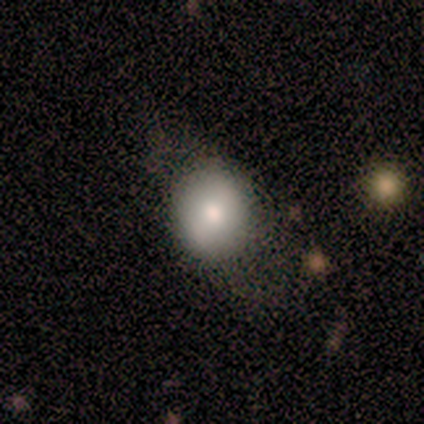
Q: Smooth or featured?
A: smooth (50%); tied with: featured or disk (50%)
Q: How rounded?
A: round (67%); runner-up: in between (33%)
Q: Merging?
A: none (83%); runner-up: minor disturbance (17%)